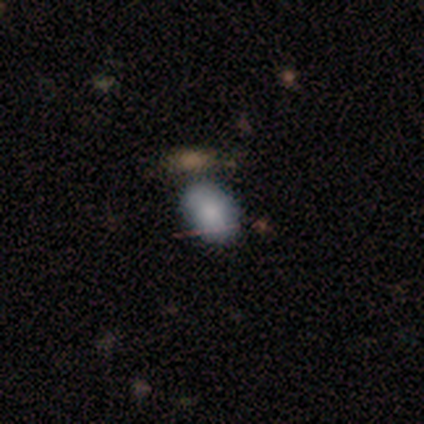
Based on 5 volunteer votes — Smooth or featured? smooth (80%)
How rounded? in between (100%)
Merging? none (50%)